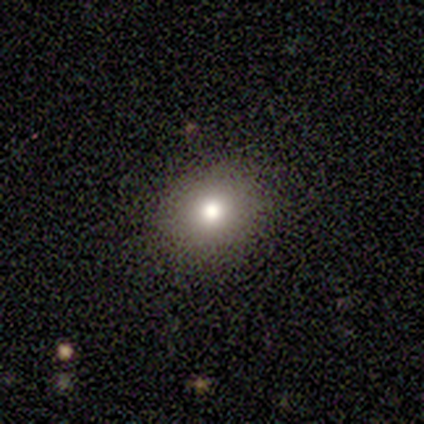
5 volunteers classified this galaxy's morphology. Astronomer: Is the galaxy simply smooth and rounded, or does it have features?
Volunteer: smooth — 80%.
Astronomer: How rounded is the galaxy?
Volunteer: round — 50%, tied with in between at 50%.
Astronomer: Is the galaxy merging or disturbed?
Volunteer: none — 100%.